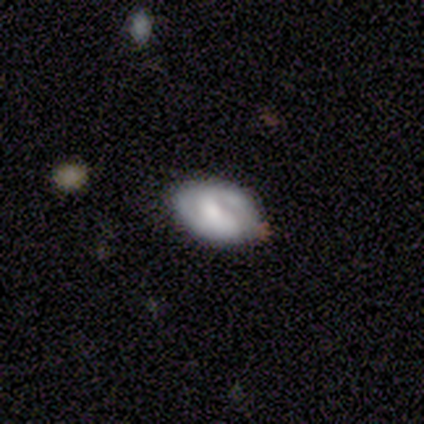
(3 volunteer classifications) smooth-or-featured: featured or disk: 100% | smooth: 0% | star or artifact: 0%
  disk-edge-on: no: 67% | yes: 33%
    bar: strong: 50% (tied) | no: 50% (tied) | weak: 0%
    has-spiral-arms: no: 100% | yes: 0%
    bulge-size: moderate: 100% | dominant: 0% | large: 0% | small: 0% | none: 0%
  merging: none: 67% | minor disturbance: 33% | major disturbance: 0% | merger: 0%